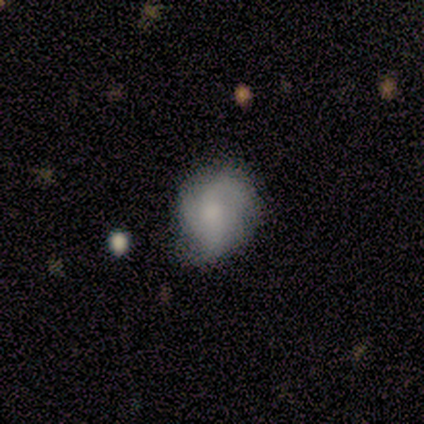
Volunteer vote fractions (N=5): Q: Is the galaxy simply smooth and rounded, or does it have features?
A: smooth — 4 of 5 (80%).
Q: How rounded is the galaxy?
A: round — 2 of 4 (50%, tied with in between).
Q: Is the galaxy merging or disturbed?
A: minor disturbance — 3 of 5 (60%).